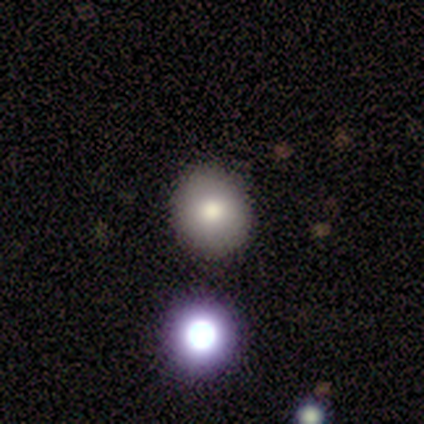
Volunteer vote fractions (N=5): A smooth galaxy with no disk features (100%) that is round (80%). Merging: none (80%).